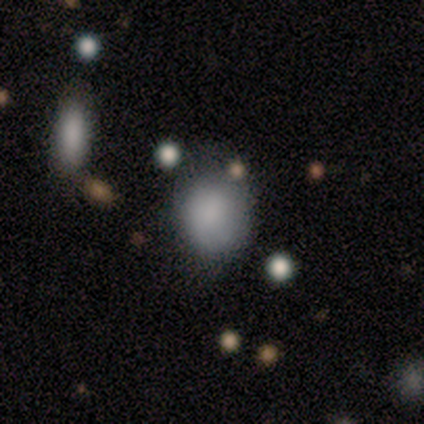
Smooth or featured? 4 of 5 (80%) said smooth. How rounded? 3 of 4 (75%) said round. Merging? 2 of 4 (50%, tied with minor disturbance) said none.